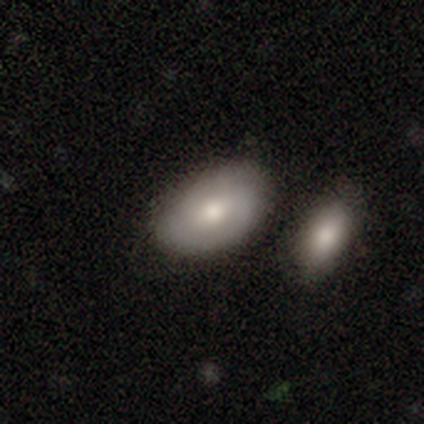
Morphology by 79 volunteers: Smooth or featured: smooth — 65% (featured or disk — 33%)
How rounded: in between — 96% (round — 4%)
Merging: none — 51% (merger — 25%)